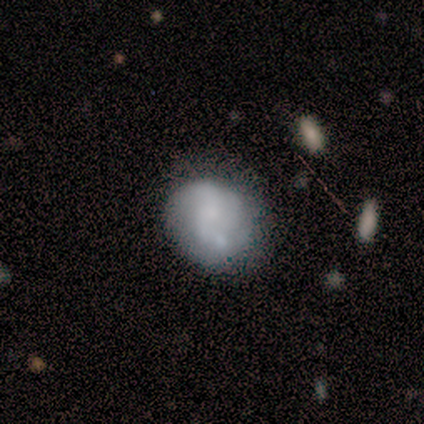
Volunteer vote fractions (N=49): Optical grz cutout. It shows a featured or disk galaxy (63%) with no bar (87%), no spiral arms (55%) and no central bulge (48%). Merging: none (46%).